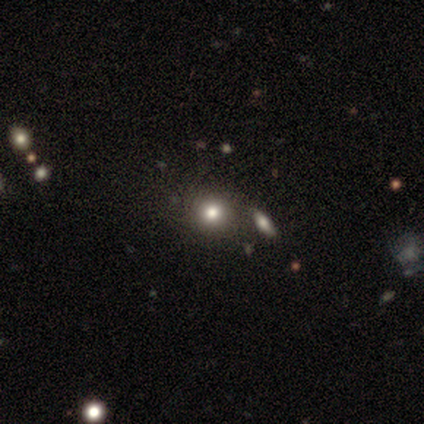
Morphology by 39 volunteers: Volunteers were most divided on "merging": none: 63%, merger: 17%, minor disturbance: 9%, major disturbance: 0%. More confident: how rounded — round (91%); smooth or featured — smooth (85%).